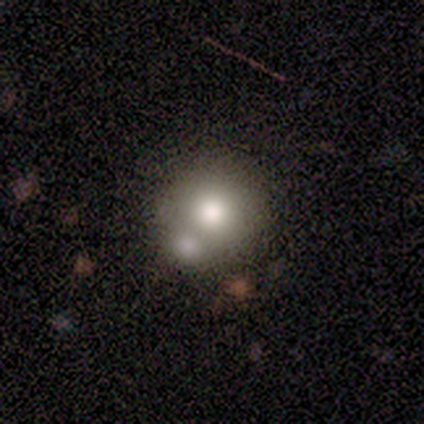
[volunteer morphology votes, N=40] Smooth or featured: smooth — 70% (featured or disk — 15%)
How rounded: round — 86% (in between — 14%)
Merging: none — 47% (merger — 35%)